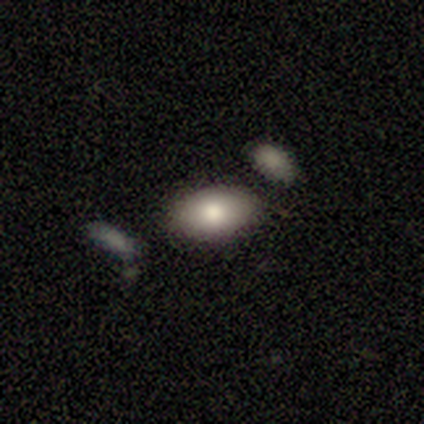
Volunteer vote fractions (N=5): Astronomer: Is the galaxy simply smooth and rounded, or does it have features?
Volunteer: featured or disk — 60% (runner-up: smooth, 40%).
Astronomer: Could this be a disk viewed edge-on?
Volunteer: no — 67%.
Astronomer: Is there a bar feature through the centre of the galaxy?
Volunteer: no — 100%.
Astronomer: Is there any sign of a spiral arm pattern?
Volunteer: yes — 50%, tied with no at 50%.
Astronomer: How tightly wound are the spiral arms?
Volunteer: tight — 100%.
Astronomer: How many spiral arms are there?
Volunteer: can't tell — 100%.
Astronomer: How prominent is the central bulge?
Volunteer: moderate — 50%, tied with small at 50%.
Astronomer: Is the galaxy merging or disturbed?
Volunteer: none — 60%.